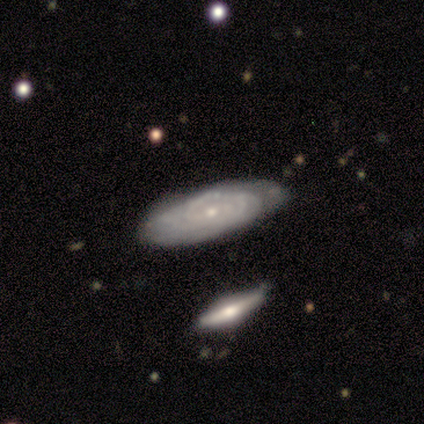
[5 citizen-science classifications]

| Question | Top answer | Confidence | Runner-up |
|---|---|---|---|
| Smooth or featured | featured or disk | 80% | smooth (20%) |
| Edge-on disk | no | 100% | — |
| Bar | no | 75% | strong (25%) |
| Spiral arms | yes | 100% | — |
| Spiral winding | tight | 50% | tied: medium (50%) |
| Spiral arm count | can't tell | 100% | — |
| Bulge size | small | 100% | — |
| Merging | none | 80% | minor disturbance (20%) |